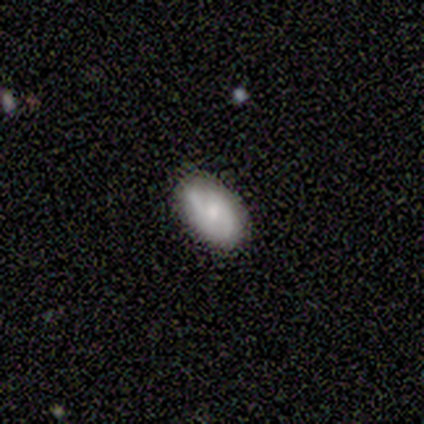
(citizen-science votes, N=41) featured or disk 63%, smooth 32%, star or artifact 5%. Down the decision tree: edge-on disk — no (96%); bar — no (44%); spiral arms — yes (92%); spiral arm count — 2 (78%); spiral winding — medium (52%); bulge size — moderate (52%); merging — none (90%).